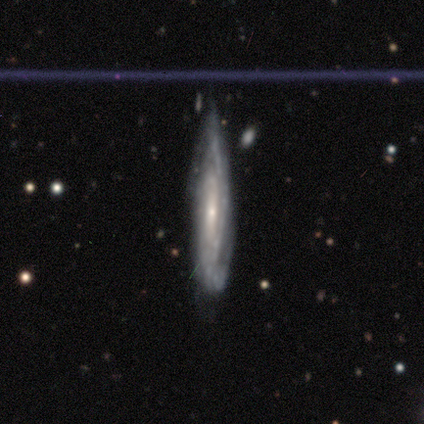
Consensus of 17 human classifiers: A featured or disk galaxy (94%) with no bar (55%), 2 (56%) tight (67%) spiral arms (82%) and a small central bulge (45%).

Vote fractions:
- Smooth or featured? featured or disk: 94% / smooth: 6% / star or artifact: 0%
- Edge-on disk? no: 69% / yes: 31%
- Bar? no: 55% / strong: 45% / weak: 0%
- Spiral arms? yes: 82% / no: 18%
- Spiral winding? tight: 67% / loose: 22% / medium: 11%
- Spiral arm count? 2: 56% / can't tell: 22% / 1: 11% / 4: 11% / 3: 0% / more than 4: 0%
- Bulge size? small: 45% / moderate: 36% / dominant: 9% / large: 9% / none: 0%
- Merging? none: 47% / minor disturbance: 35% / major disturbance: 12% / merger: 6%